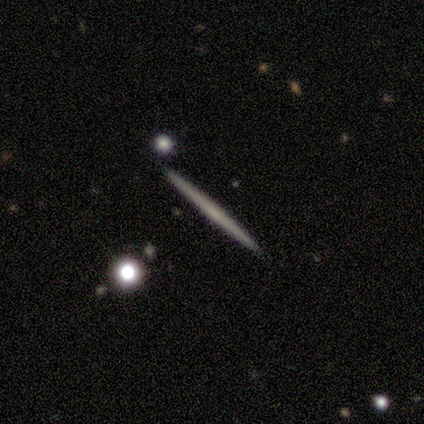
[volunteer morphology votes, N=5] smooth_or_featured: smooth (p=0.60) [alt: featured or disk p=0.40]
how_rounded: cigar-shaped (p=1.00)
merging: none (p=1.00)